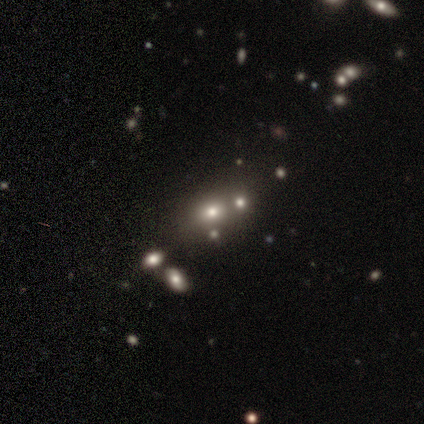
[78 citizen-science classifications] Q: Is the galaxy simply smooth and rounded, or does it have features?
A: smooth — 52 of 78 (67%).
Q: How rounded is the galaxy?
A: in between — 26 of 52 (50%).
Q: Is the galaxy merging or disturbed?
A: merger — 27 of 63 (43%).